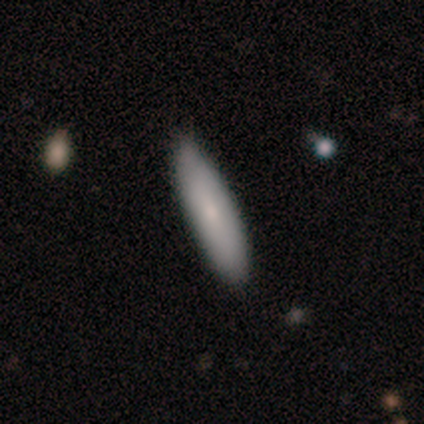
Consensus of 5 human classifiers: Q: Smooth or featured?
A: smooth (60%); runner-up: featured or disk (40%)
Q: How rounded?
A: cigar-shaped (100%)
Q: Merging?
A: none (60%); runner-up: minor disturbance (20%)